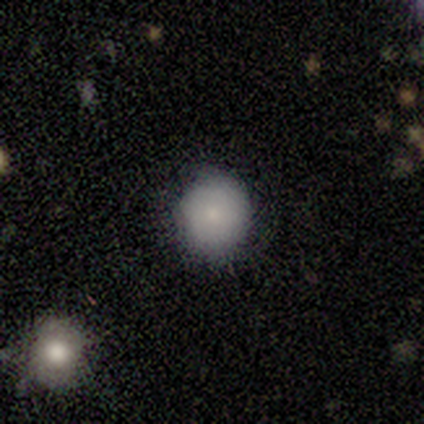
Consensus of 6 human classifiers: A smooth galaxy with no disk features (100%) that is round (83%). Merging: none (83%).